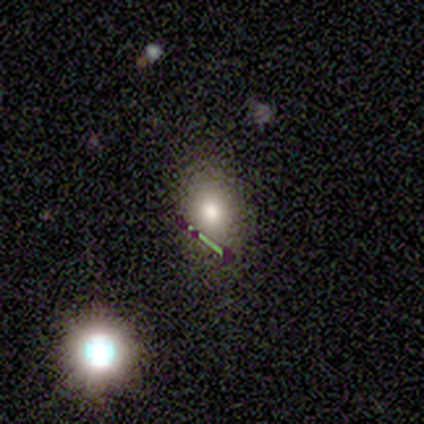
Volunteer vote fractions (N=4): smooth-or-featured: smooth: 50% | featured or disk: 25% | star or artifact: 25%
  how-rounded: round: 50% (tied) | in between: 50% (tied) | cigar-shaped: 0%
  merging: none: 33% (tied) | minor disturbance: 33% (tied) | major disturbance: 33% (tied) | merger: 0%